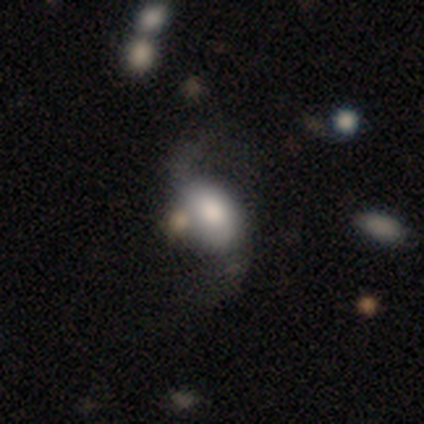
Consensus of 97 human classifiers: smooth-or-featured: featured or disk: 62% | smooth: 32% | star or artifact: 6%
  disk-edge-on: no: 97% | yes: 3%
    bar: no: 55% | weak: 38% | strong: 7%
    has-spiral-arms: yes: 91% | no: 9%
      spiral-winding: loose: 94% | medium: 6% | tight: 0%
      spiral-arm-count: 2: 96% | 1: 4% | 3: 0% | 4: 0% | more than 4: 0% | can't tell: 0%
    bulge-size: moderate: 38% | large: 31% | dominant: 16% | small: 16% | none: 0%
  merging: none: 57% | major disturbance: 20% | merger: 12% | minor disturbance: 11%